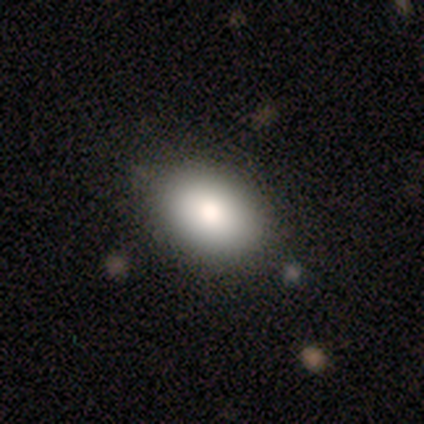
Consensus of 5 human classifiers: smooth_or_featured: smooth (p=1.00)
how_rounded: in between (p=0.80) [alt: round p=0.20]
merging: none (p=1.00)